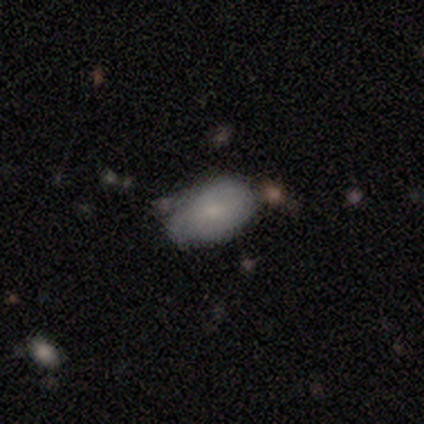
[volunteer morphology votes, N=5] Volunteers were most divided on "merging" (2-way tie): none: 40%, minor disturbance: 40%, merger: 20%, major disturbance: 0%. More confident: how rounded — in between (100%); smooth or featured — smooth (60%).